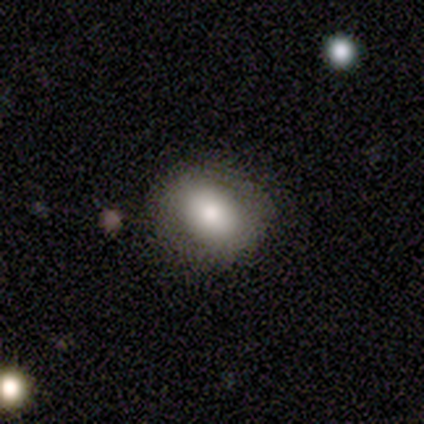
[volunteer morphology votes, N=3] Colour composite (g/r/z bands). It shows a smooth galaxy with no disk features (67%) that is round (50%, tied with in between). Merging: none (100%).